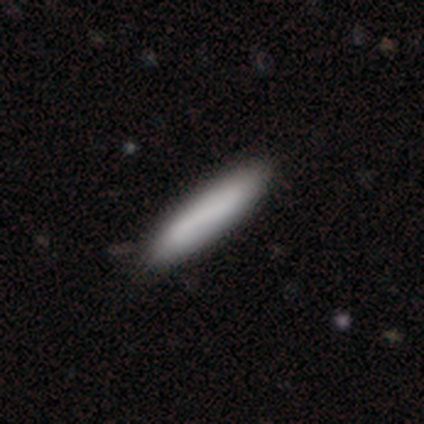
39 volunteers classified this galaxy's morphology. Smooth or featured: smooth — 82% (featured or disk — 18%)
How rounded: cigar-shaped — 94% (in between — 6%)
Merging: none — 62% (minor disturbance — 8%)